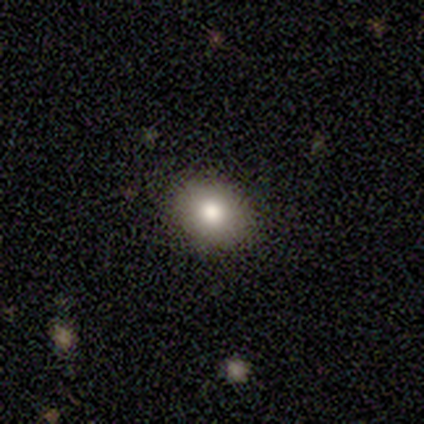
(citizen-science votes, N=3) Volunteers were most divided on "how rounded": round: 67%, in between: 33%, cigar-shaped: 0%. More confident: smooth or featured — smooth (100%); merging — none (67%).